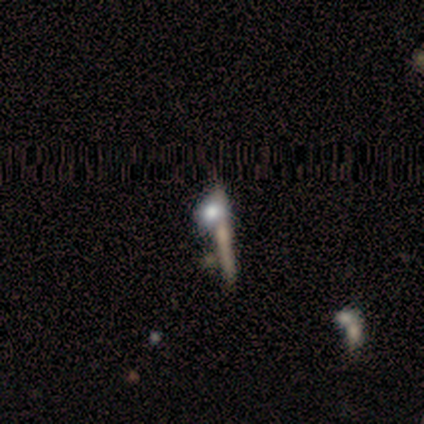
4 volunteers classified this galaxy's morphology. A smooth galaxy with no disk features (75%) that is cigar-shaped (67%).

Vote fractions:
- Smooth or featured? smooth: 75% / featured or disk: 25% / star or artifact: 0%
- How rounded? cigar-shaped: 67% / round: 33% / in between: 0%
- Merging? none: 50% / minor disturbance: 25% / major disturbance: 25% / merger: 0%